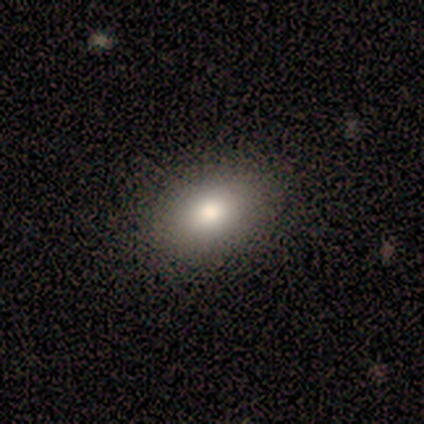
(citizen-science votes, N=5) Overall: smooth (60%; featured or disk 40%). How rounded: in between (100%). Merging: none (80%).